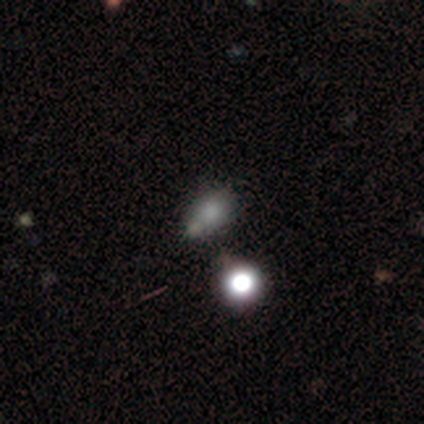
Smooth or featured? smooth (71%)
How rounded? in between (60%)
Merging? merger (71%)